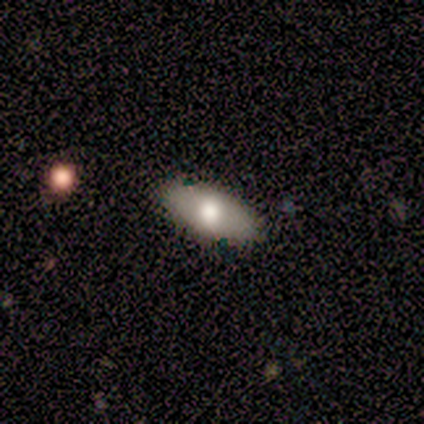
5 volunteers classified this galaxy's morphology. A smooth galaxy with no disk features (60%) that is in between round and cigar-shaped (100%). Merging: none (50%).